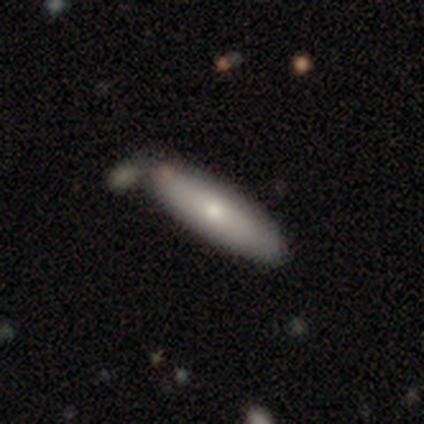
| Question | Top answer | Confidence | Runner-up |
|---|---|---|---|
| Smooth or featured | smooth | 73% | featured or disk (23%) |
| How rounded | cigar-shaped | 71% | in between (29%) |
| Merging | none | 43% | merger (17%) |